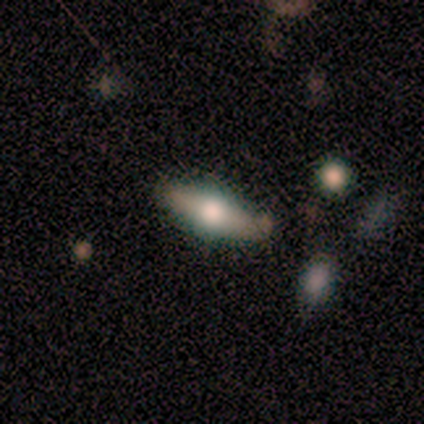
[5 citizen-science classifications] Smooth or featured? 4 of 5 (80%) said smooth. How rounded? 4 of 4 (100%) said in between. Merging? 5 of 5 (100%) said none.